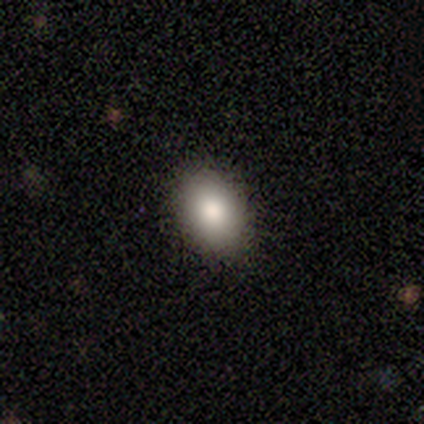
Q: Smooth or featured?
A: featured or disk (60%); runner-up: smooth (40%)
Q: Edge-on disk?
A: no (100%)
Q: Bar?
A: no (100%)
Q: Spiral arms?
A: no (100%)
Q: Bulge size?
A: large (67%); runner-up: moderate (33%)
Q: Merging?
A: none (100%)